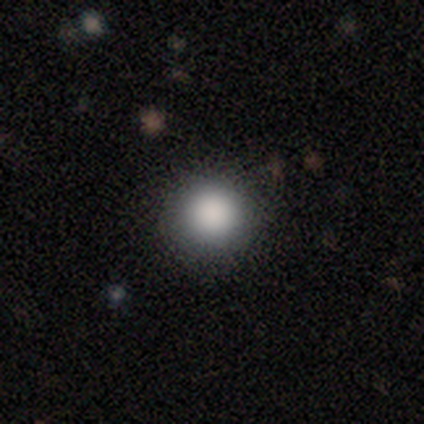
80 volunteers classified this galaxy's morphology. Overall: smooth (85%). How rounded: round (97%). Merging: none (91%).